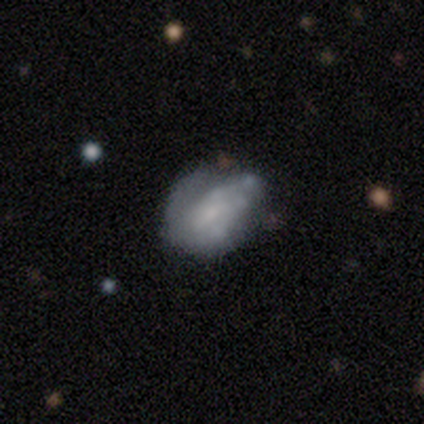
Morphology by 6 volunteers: type=featured or disk (50%); edge-on=no (100%); bar=weak (67%); spiral arms=yes (100%); winding=tight (100%); arm count=can't tell (67%); bulge=moderate (33%, tied with small and none); merging=none (80%).